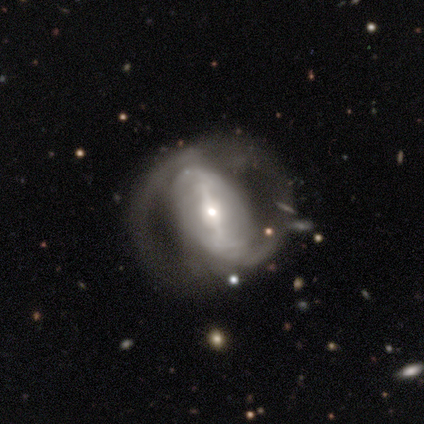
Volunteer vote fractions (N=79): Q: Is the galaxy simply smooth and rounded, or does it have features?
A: featured or disk — 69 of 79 (87%).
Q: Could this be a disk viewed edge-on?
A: no — 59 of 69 (86%).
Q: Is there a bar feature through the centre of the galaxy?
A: strong — 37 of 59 (63%).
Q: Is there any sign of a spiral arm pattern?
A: yes — 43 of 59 (73%).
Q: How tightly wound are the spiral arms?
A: medium — 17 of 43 (40%).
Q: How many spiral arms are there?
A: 2 — 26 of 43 (60%).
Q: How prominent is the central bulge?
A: small — 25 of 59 (42%).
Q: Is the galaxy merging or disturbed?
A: none — 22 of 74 (30%).